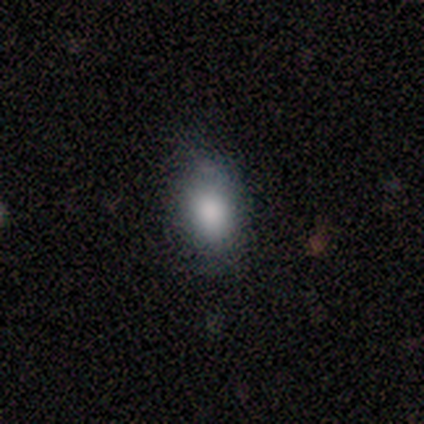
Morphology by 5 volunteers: A smooth galaxy with no disk features (80%) that is in between round and cigar-shaped (50%).

Vote fractions:
- Smooth or featured? smooth: 80% / featured or disk: 20% / star or artifact: 0%
- How rounded? in between: 50% / round: 25% / cigar-shaped: 25%
- Merging? none: 100% / minor disturbance: 0% / major disturbance: 0% / merger: 0%